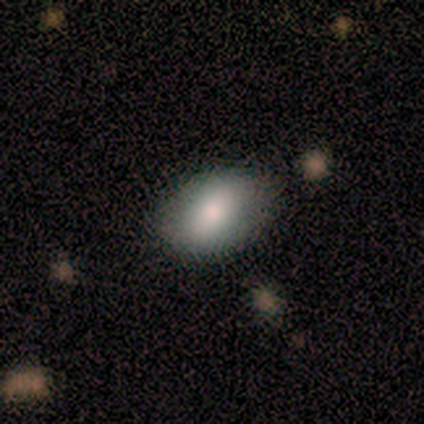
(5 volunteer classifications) Volunteers were most divided on "how rounded": in between: 80%, round: 20%, cigar-shaped: 0%. More confident: smooth or featured — smooth (100%); merging — none (80%).